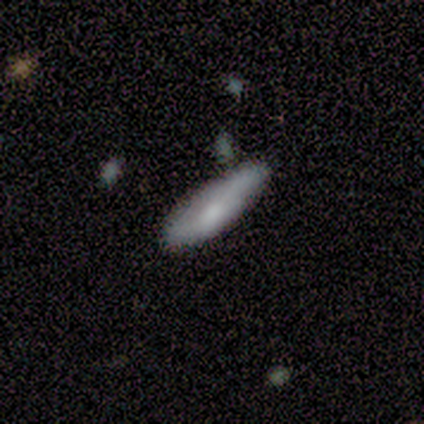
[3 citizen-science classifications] smooth 100%, featured or disk 0%, star or artifact 0%. Down the decision tree: how rounded — cigar-shaped (100%); merging — none (67%).